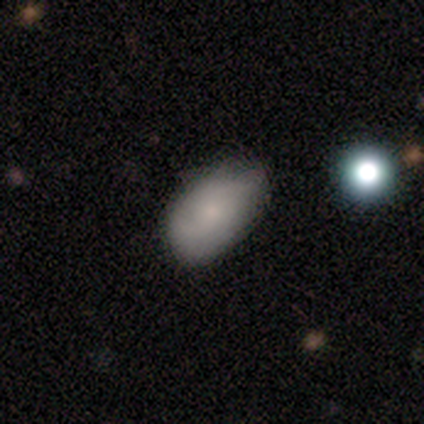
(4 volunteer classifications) Q: Smooth or featured?
A: smooth (75%); runner-up: featured or disk (25%)
Q: How rounded?
A: in between (100%)
Q: Merging?
A: none (50%); tied with: minor disturbance (50%)